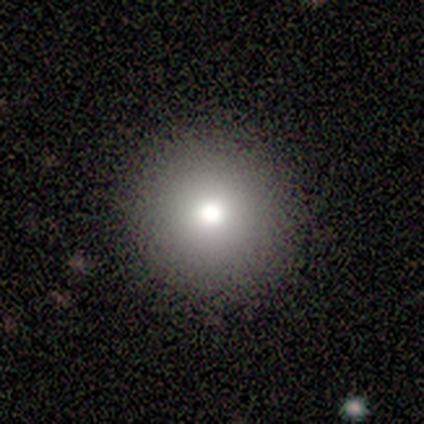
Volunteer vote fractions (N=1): This appears to be a smooth galaxy with no disk features (100%) that is round (100%). Merging: none (100%).